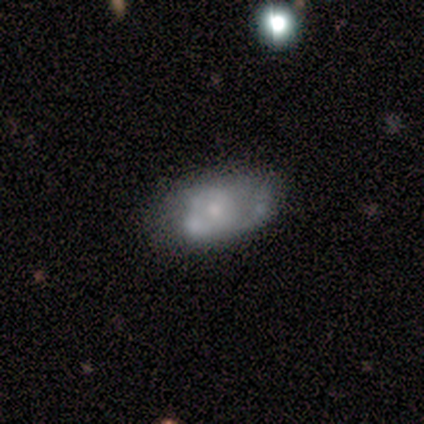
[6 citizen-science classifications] A featured or disk galaxy (67%) with no bar (100%), no spiral arms (75%) and a moderate central bulge (50%).

Vote fractions:
- Smooth or featured? featured or disk: 67% / smooth: 33% / star or artifact: 0%
- Edge-on disk? no: 100% / yes: 0%
- Bar? no: 100% / strong: 0% / weak: 0%
- Spiral arms? no: 75% / yes: 25%
- Bulge size? moderate: 50% / dominant: 25% / small: 25% / large: 0% / none: 0%
- Merging? none: 67% / minor disturbance: 33% / major disturbance: 0% / merger: 0%